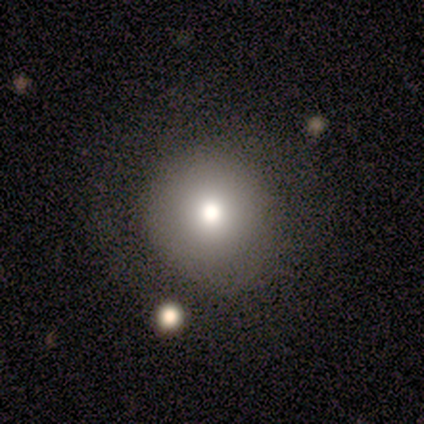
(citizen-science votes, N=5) Smooth or featured? smooth (80%)
How rounded? round (100%)
Merging? none (100%)